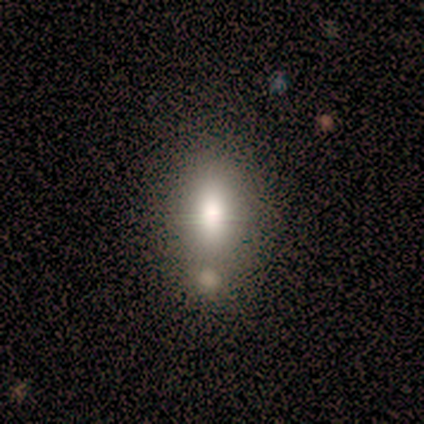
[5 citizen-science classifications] A smooth galaxy with no disk features (60%) that is in between round and cigar-shaped (67%). Merging: none (67%).